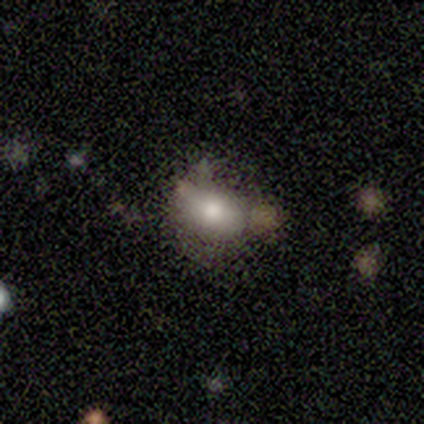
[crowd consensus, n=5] Morphology: type=smooth (80%); roundness=in between (100%); merging=none (50%, tied with minor disturbance).